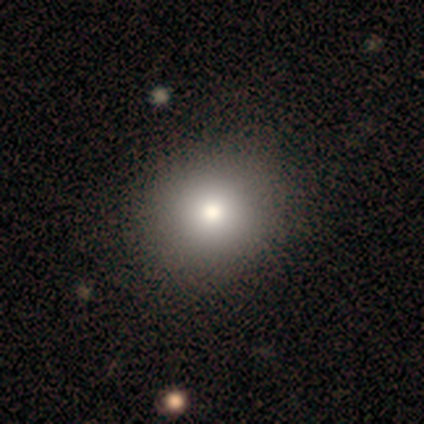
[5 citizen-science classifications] A smooth galaxy with no disk features (60%) that is round (67%). Merging: none (100%).